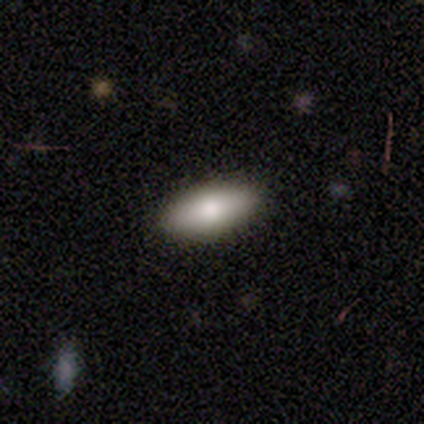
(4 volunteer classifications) Smooth or featured?
  - smooth: 100% *
  - featured or disk: 0%
  - star or artifact: 0%
How rounded?
  - in between: 75% *
  - cigar-shaped: 25%
  - round: 0%
Merging?
  - none: 100% *
  - minor disturbance: 0%
  - major disturbance: 0%
  - merger: 0%